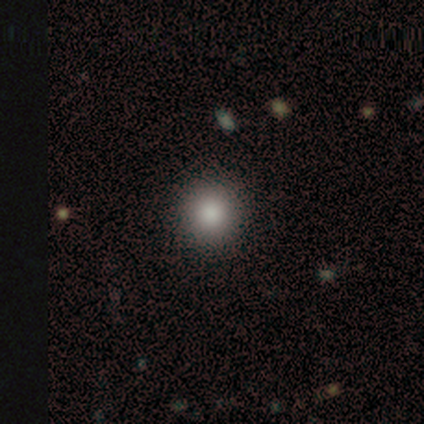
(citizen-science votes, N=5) A smooth galaxy with no disk features (80%) that is round (100%). Merging: none (100%).